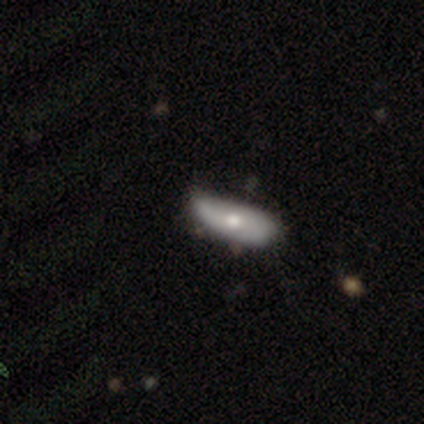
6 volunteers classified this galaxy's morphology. smooth_or_featured: smooth (p=0.50) [tied with: featured or disk p=0.50]
how_rounded: in between (p=0.67) [alt: cigar-shaped p=0.33]
merging: none (p=0.50) [alt: minor disturbance p=0.33]